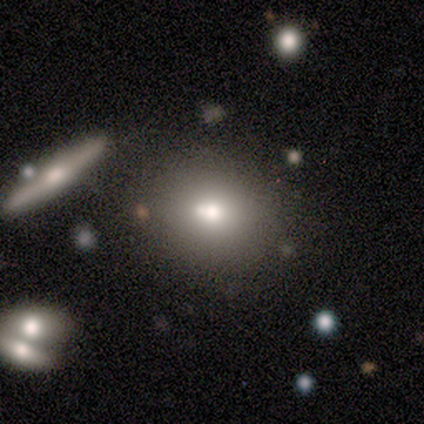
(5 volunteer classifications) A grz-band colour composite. It shows a featured or disk galaxy (60%) with no bar (100%), no spiral arms (100%) and a moderate central bulge (50%, tied with small). Merging: none (80%).